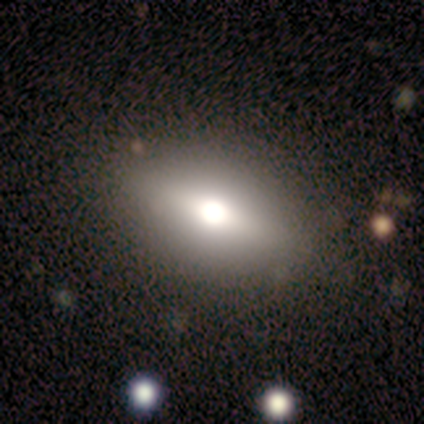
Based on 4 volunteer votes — This appears to be a smooth galaxy with no disk features (100%) that is in between round and cigar-shaped (50%, tied with cigar-shaped). Merging: none (100%).